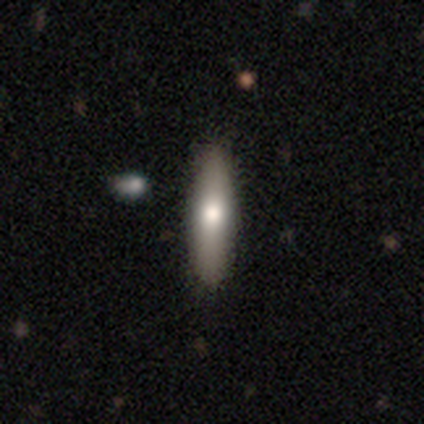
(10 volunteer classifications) Smooth or featured: smooth — 70% (featured or disk — 30%)
How rounded: cigar-shaped — 71% (in between — 29%)
Merging: none — 90% (minor disturbance — 10%)